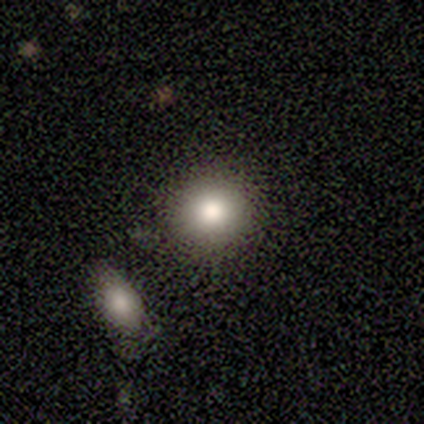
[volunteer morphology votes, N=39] type=smooth (77%); roundness=round (93%); merging=none (74%).